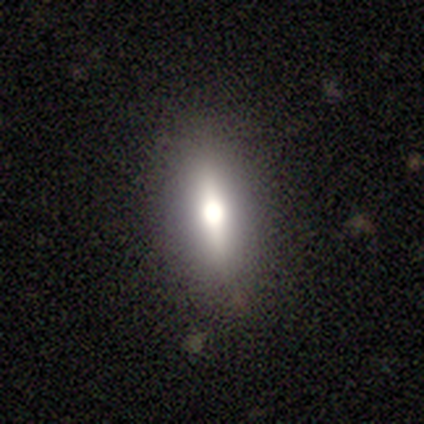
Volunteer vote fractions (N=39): smooth-or-featured: smooth: 46% | featured or disk: 38% | star or artifact: 15%
  how-rounded: in between: 78% | cigar-shaped: 22% | round: 0%
  merging: none: 91% | minor disturbance: 9% | major disturbance: 0% | merger: 0%